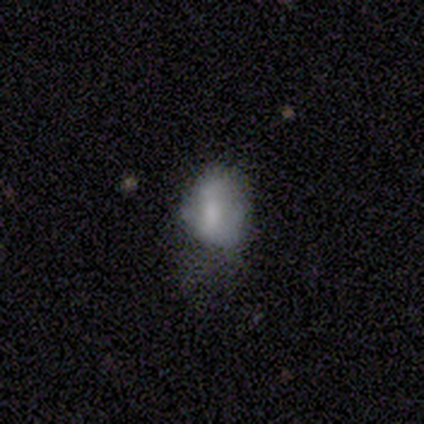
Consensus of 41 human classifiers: Smooth or featured? 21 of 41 (51%) said smooth. How rounded? 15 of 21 (71%) said in between. Merging? 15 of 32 (47%) said major disturbance.